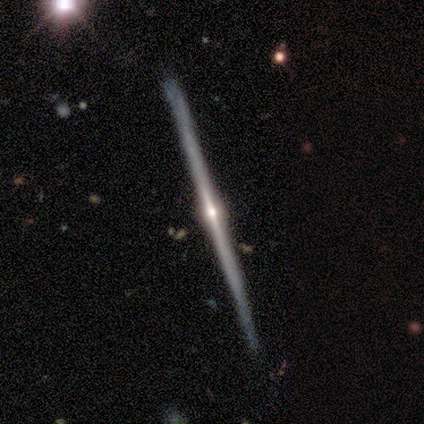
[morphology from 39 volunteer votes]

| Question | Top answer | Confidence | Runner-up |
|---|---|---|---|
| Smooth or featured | featured or disk | 92% | smooth (8%) |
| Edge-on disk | yes | 100% | — |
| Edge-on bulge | rounded | 92% | none (8%) |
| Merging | none | 87% | minor disturbance (13%) |